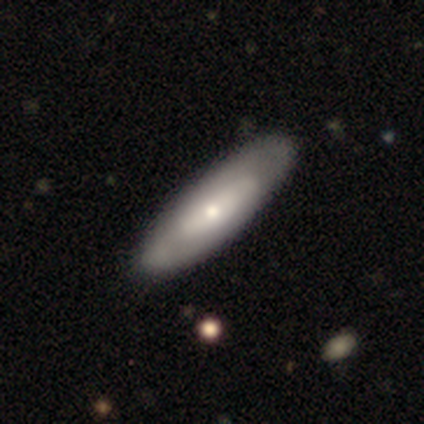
Smooth or featured? smooth (75%)
How rounded? cigar-shaped (67%)
Merging? none (75%)